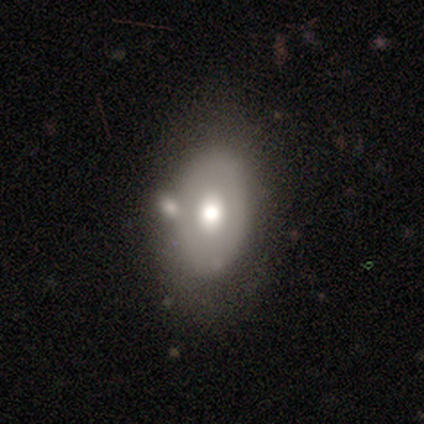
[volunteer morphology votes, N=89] type=smooth (52%); roundness=in between (85%); merging=none (58%).